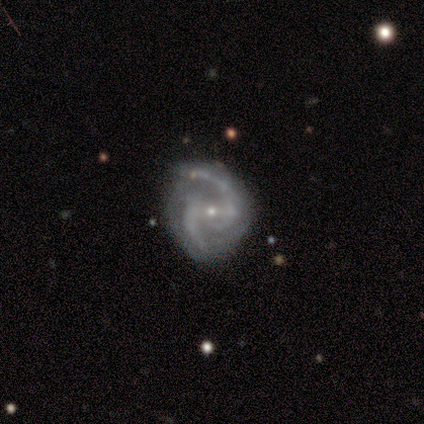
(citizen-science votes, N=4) Smooth or featured: featured or disk — 100%
Edge-on disk: no — 100%
Bar: strong — 50% (weak — 25%)
Spiral arms: yes — 100%
Spiral winding: medium — 75% (loose — 25%)
Spiral arm count: 2 — 100%
Bulge size: small — 100%
Merging: none — 75% (minor disturbance — 25%)